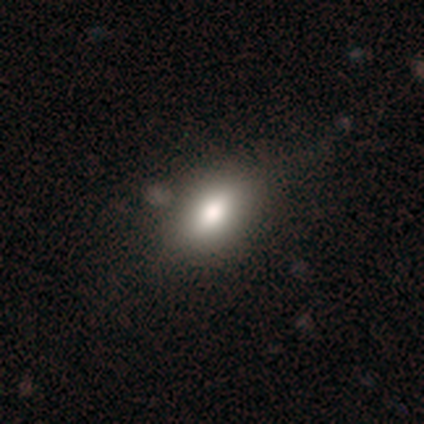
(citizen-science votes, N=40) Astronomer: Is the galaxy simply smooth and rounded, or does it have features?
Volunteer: smooth — 80%.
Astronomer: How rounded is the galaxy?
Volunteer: in between — 97%.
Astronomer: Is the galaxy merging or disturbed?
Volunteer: none — 46%.